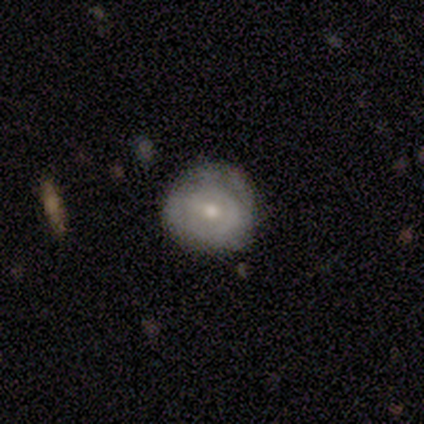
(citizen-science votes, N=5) Q: Smooth or featured?
A: smooth (80%); runner-up: featured or disk (20%)
Q: How rounded?
A: round (100%)
Q: Merging?
A: none (80%); runner-up: minor disturbance (20%)